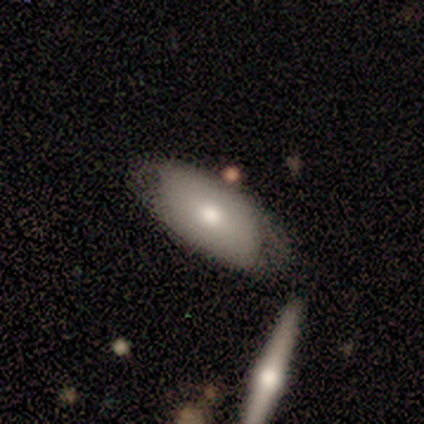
A smooth galaxy with no disk features (60%) that is in between round and cigar-shaped (67%). Merging: none (60%).